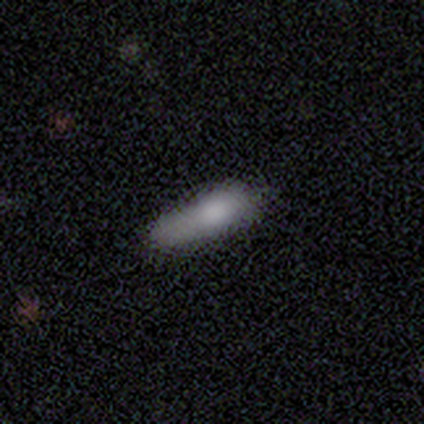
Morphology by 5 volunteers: smooth_or_featured: smooth (p=0.80) [alt: featured or disk p=0.20]
how_rounded: cigar-shaped (p=0.75) [alt: in between p=0.25]
merging: none (p=0.80) [alt: major disturbance p=0.20]